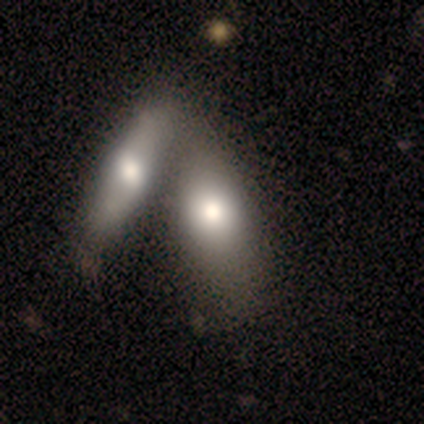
A smooth galaxy with no disk features (100%) that is in between round and cigar-shaped (60%).

Vote fractions:
- Smooth or featured? smooth: 100% / featured or disk: 0% / star or artifact: 0%
- How rounded? in between: 60% / cigar-shaped: 40% / round: 0%
- Merging? merger: 100% / none: 0% / minor disturbance: 0% / major disturbance: 0%